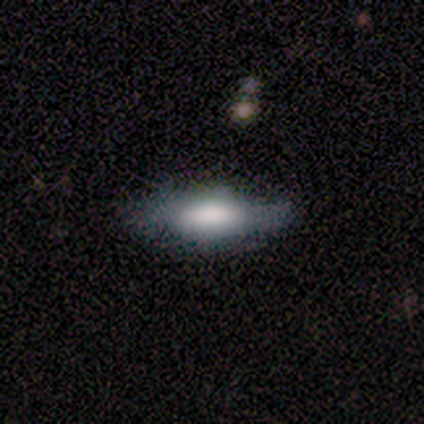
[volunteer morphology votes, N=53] A smooth galaxy with no disk features (55%) that is in between round and cigar-shaped (69%).

Vote fractions:
- Smooth or featured? smooth: 55% / featured or disk: 40% / star or artifact: 6%
- How rounded? in between: 69% / cigar-shaped: 31% / round: 0%
- Merging? none: 60% / minor disturbance: 30% / major disturbance: 10% / merger: 0%